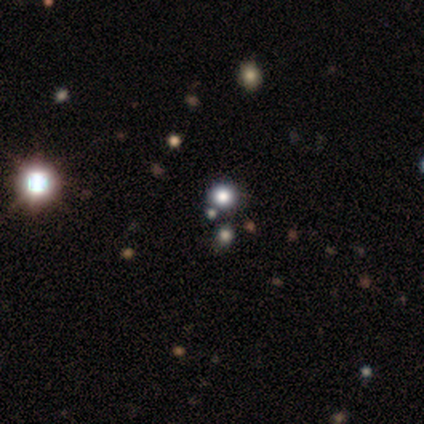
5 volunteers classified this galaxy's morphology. Smooth or featured?
  - star or artifact: 60% *
  - smooth: 40%
  - featured or disk: 0%